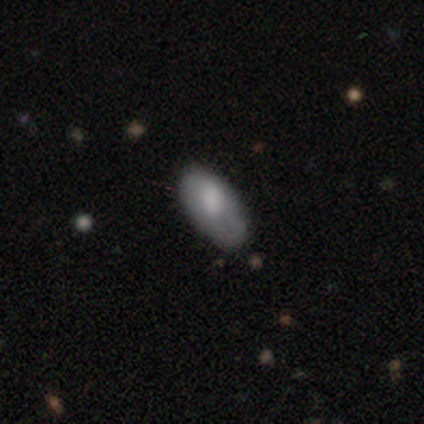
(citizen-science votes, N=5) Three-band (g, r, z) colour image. It shows a smooth galaxy with no disk features (40%, tied with featured or disk) that is in between round and cigar-shaped (100%). Merging: none (50%).